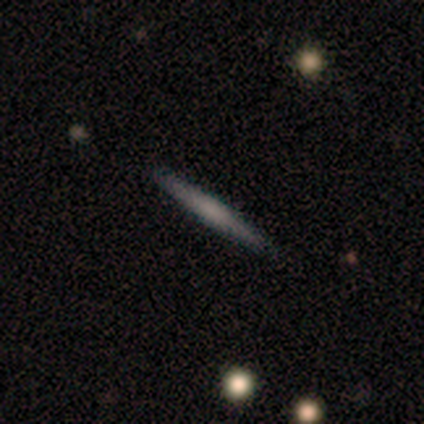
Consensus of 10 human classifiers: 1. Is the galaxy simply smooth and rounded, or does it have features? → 70% featured or disk, 30% smooth, 0% star or artifact.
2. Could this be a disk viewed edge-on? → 100% yes, 0% no.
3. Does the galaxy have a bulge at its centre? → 43% none, 29% boxy, 29% rounded.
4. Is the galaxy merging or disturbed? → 90% none, 10% minor disturbance, 0% major disturbance, 0% merger.